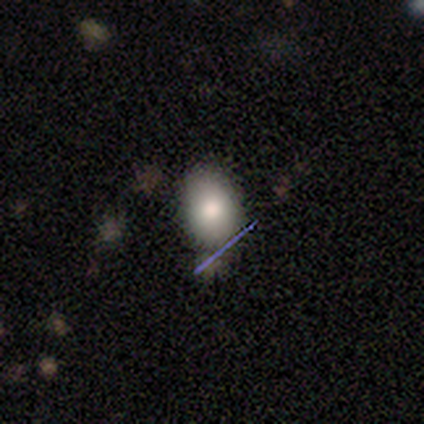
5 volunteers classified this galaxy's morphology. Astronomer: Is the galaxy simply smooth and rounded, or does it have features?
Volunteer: smooth — 100%.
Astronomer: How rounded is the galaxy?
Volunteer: in between — 60% (runner-up: round, 40%).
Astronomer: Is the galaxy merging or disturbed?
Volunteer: none — 100%.